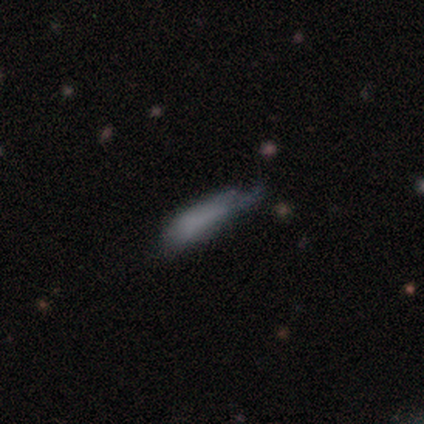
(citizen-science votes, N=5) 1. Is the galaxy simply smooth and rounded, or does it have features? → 60% smooth, 20% featured or disk, 20% star or artifact.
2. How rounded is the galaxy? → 67% in between, 33% cigar-shaped, 0% round.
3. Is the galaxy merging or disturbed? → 50% major disturbance, 25% none, 25% minor disturbance, 0% merger.